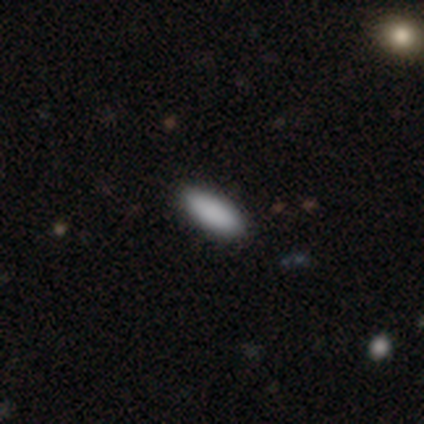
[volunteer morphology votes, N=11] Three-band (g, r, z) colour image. It shows a smooth galaxy with no disk features (82%) that is in between round and cigar-shaped (78%). Merging: none (90%).